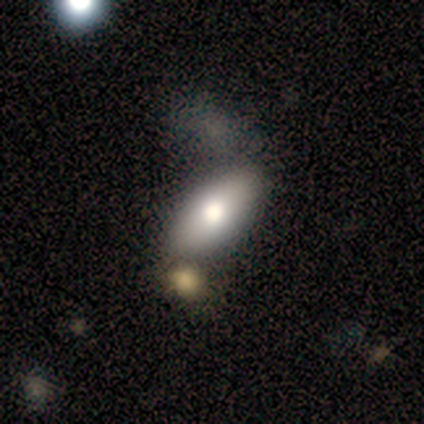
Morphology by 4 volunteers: smooth_or_featured: smooth (p=0.50) [tied with: featured or disk p=0.50]
how_rounded: in between (p=1.00)
merging: none (p=0.75) [alt: minor disturbance p=0.25]